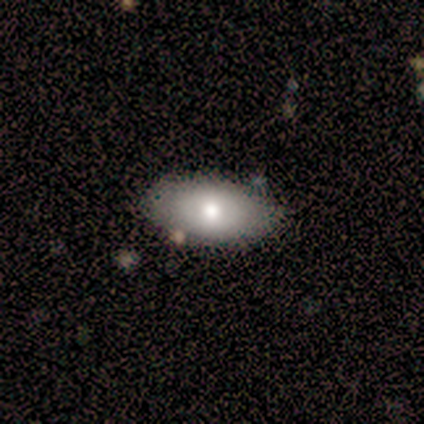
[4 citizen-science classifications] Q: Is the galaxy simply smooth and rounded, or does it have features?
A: smooth — 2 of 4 (50%, tied with featured or disk).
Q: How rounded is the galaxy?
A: in between — 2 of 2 (100%).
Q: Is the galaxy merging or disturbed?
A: none — 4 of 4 (100%).